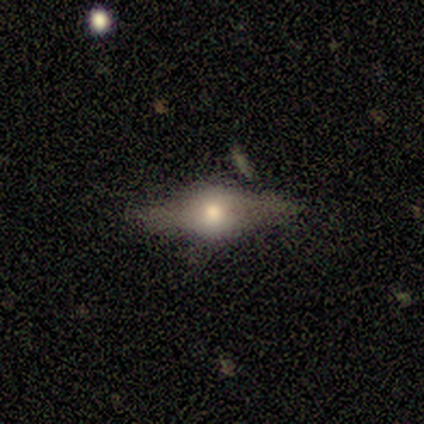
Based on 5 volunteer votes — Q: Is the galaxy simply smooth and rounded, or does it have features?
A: featured or disk — 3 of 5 (60%).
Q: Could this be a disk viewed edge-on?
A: yes — 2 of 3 (67%).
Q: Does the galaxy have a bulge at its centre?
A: rounded — 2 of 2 (100%).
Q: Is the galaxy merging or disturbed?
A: minor disturbance — 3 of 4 (75%).